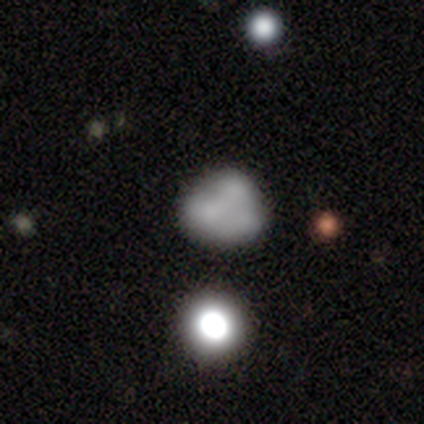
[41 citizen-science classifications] Overall: smooth (49%; featured or disk 32%). How rounded: round (65%; in between 35%). Merging: none (70%).